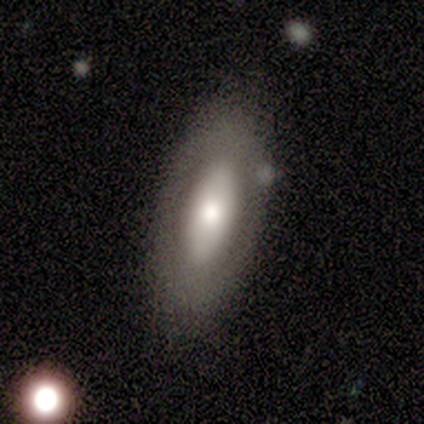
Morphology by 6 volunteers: smooth-or-featured: featured or disk: 83% | smooth: 17% | star or artifact: 0%
  disk-edge-on: no: 100% | yes: 0%
    bar: no: 60% | weak: 40% | strong: 0%
    has-spiral-arms: no: 80% | yes: 20%
    bulge-size: moderate: 60% | dominant: 20% | small: 20% | large: 0% | none: 0%
  merging: none: 100% | minor disturbance: 0% | major disturbance: 0% | merger: 0%